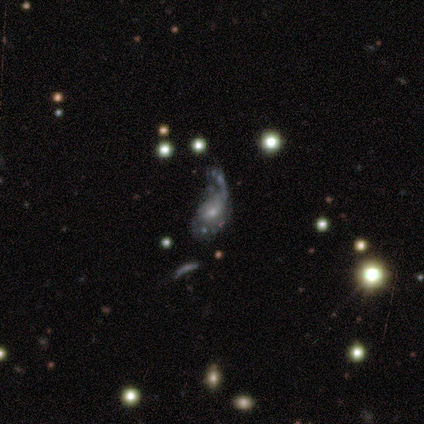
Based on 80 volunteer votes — Smooth or featured?
  - featured or disk: 72% *
  - smooth: 22%
  - star or artifact: 5%
Edge-on disk?
  - no: 95% *
  - yes: 5%
Bar?
  - no: 91% *
  - weak: 9%
  - strong: 0%
Spiral arms?
  - yes: 51% *
  - no: 49%
Spiral winding?
  - loose: 61% *
  - medium: 25%
  - tight: 14%
Spiral arm count?
  - 1: 54% *
  - can't tell: 29%
  - 2: 18%
  - 3: 0%
  - 4: 0%
  - more than 4: 0%
Bulge size?
  - small: 53% *
  - moderate: 35%
  - large: 9%
  - none: 4%
  - dominant: 0%
Merging?
  - major disturbance: 53% *
  - minor disturbance: 20%
  - merger: 18%
  - none: 9%